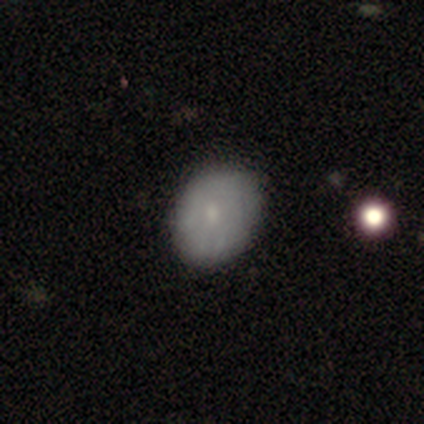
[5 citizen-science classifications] Smooth or featured? 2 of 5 (40%, tied with featured or disk) said smooth. How rounded? 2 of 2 (100%) said in between. Merging? 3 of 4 (75%) said none.